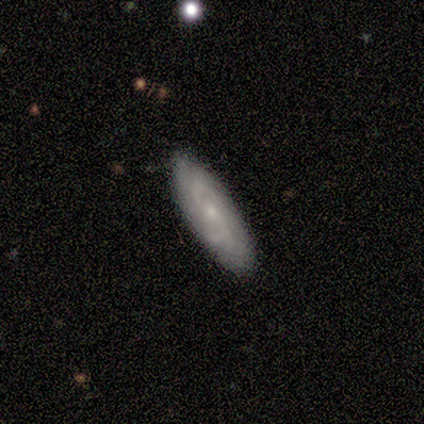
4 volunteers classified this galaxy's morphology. A featured or disk galaxy (100%) with a strong bar (33%, tied with weak and no), 2 (100%) medium (100%) spiral arms (67%) and a small central bulge (67%). Merging: none (100%).